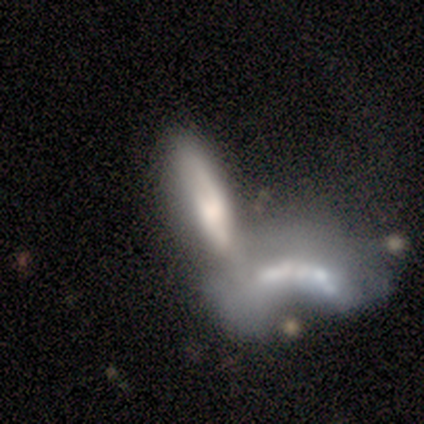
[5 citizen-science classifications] This appears to be a featured or disk galaxy (60%) with no bar (67%), no spiral arms (67%) and no central bulge (67%). Merging: merger (100%).